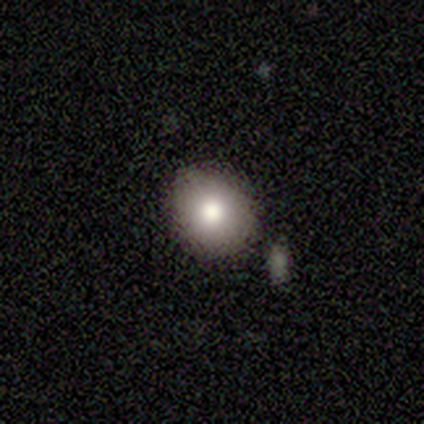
smooth 60%, featured or disk 20%, star or artifact 20%. Down the decision tree: how rounded — in between (67%); merging — none (75%).